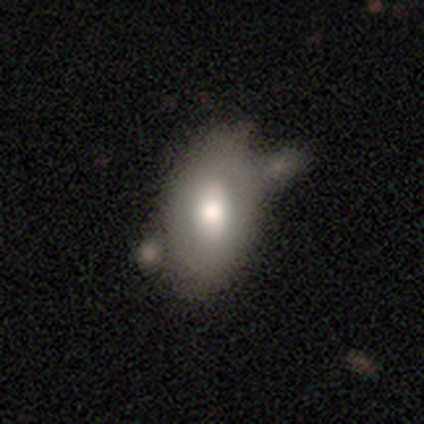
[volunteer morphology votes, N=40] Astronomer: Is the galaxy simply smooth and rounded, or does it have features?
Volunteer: smooth — 80%.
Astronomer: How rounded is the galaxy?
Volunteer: in between — 91%.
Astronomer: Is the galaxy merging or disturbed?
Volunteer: merger — 32% (runner-up: minor disturbance, 28%).